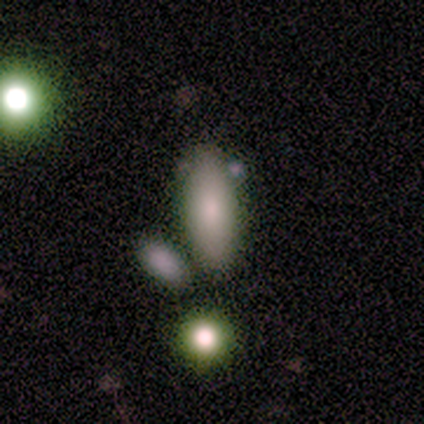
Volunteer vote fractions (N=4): smooth_or_featured: smooth (p=1.00)
how_rounded: in between (p=1.00)
merging: none (p=0.75) [alt: minor disturbance p=0.25]